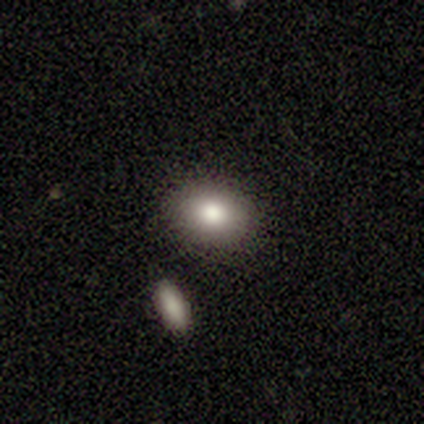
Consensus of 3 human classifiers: smooth 100%, featured or disk 0%, star or artifact 0%. Down the decision tree: how rounded — in between (67%); merging — none (33%, tied with minor disturbance and merger).